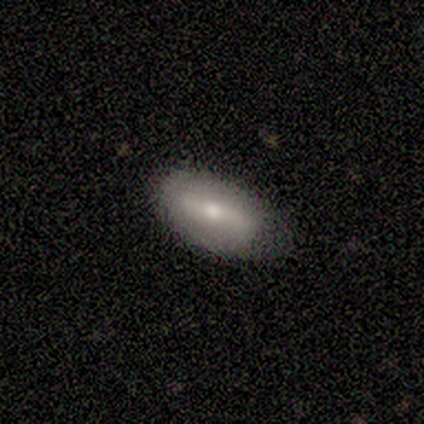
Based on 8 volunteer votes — A featured or disk galaxy (62%) with a weak bar (60%), no spiral arms (60%) and a moderate central bulge (60%). Merging: none (62%).